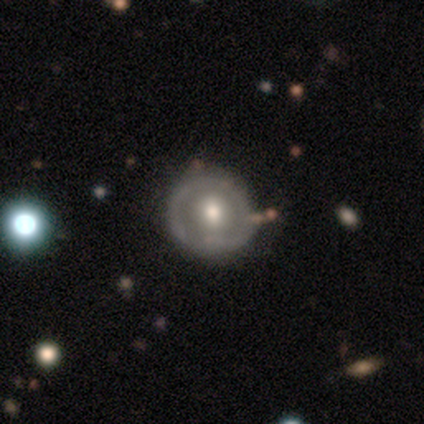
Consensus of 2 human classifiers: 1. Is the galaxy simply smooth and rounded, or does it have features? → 100% featured or disk, 0% smooth, 0% star or artifact.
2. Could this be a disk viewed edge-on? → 100% no, 0% yes.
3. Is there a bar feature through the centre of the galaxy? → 100% no, 0% strong, 0% weak.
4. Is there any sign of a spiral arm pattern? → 50% yes (tied), 50% no (tied).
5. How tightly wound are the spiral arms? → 100% tight, 0% medium, 0% loose.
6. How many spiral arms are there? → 100% more than 4, 0% 1, 0% 2, 0% 3, 0% 4, 0% can't tell.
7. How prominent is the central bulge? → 50% moderate (tied), 50% small (tied), 0% dominant, 0% large, 0% none.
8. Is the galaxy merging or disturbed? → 100% none, 0% minor disturbance, 0% major disturbance, 0% merger.